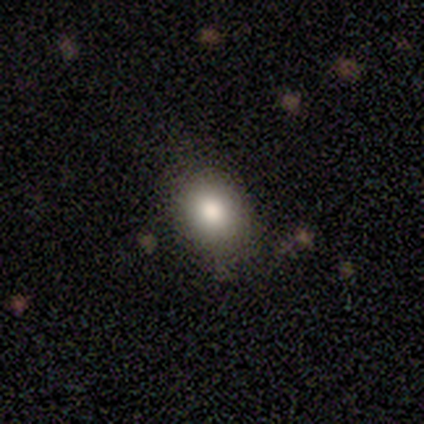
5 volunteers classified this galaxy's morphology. A smooth galaxy with no disk features (80%) that is round (100%).

Vote fractions:
- Smooth or featured? smooth: 80% / star or artifact: 20% / featured or disk: 0%
- How rounded? round: 100% / in between: 0% / cigar-shaped: 0%
- Merging? none: 100% / minor disturbance: 0% / major disturbance: 0% / merger: 0%